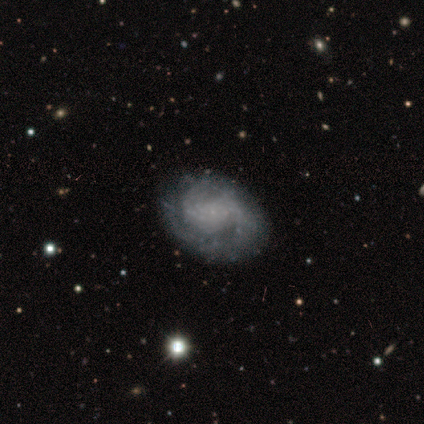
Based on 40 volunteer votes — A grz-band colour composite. It shows a featured or disk galaxy (80%) with no bar (69%), 2 (56%) tight (63%) spiral arms (84%) and a small central bulge (47%, tied with none). Merging: none (80%).